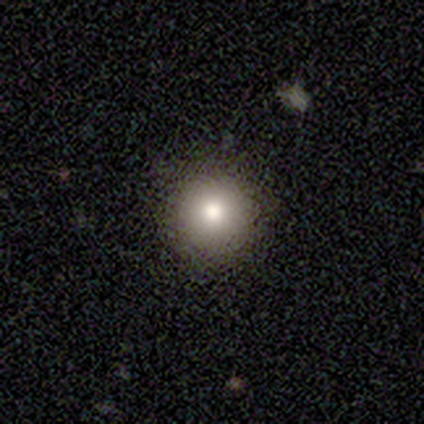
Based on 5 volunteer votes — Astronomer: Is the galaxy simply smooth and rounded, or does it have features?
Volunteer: smooth — 40%, tied with featured or disk at 40%.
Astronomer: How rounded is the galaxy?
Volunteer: round — 100%.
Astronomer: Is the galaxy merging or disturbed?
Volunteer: none — 100%.